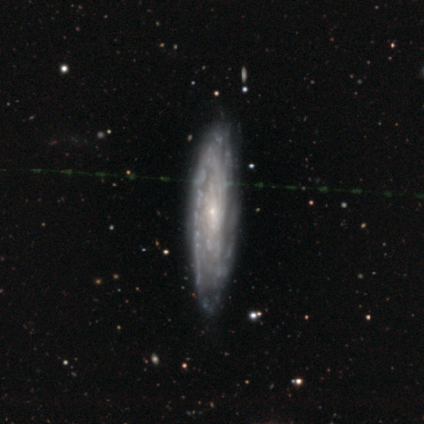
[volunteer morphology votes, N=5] featured or disk 100%, smooth 0%, star or artifact 0%. Down the decision tree: edge-on disk — no (60%); bar — no (100%); spiral arms — yes (100%); spiral arm count — can't tell (67%); spiral winding — medium (100%); bulge size — small (100%); merging — none (60%).